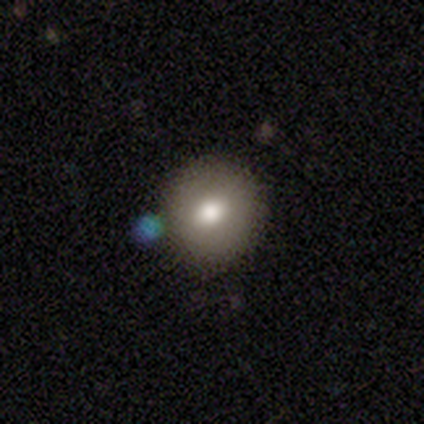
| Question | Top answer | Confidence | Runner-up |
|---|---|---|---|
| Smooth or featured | smooth | 79% | featured or disk (15%) |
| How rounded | round | 91% | in between (9%) |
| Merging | none | 73% | minor disturbance (16%) |